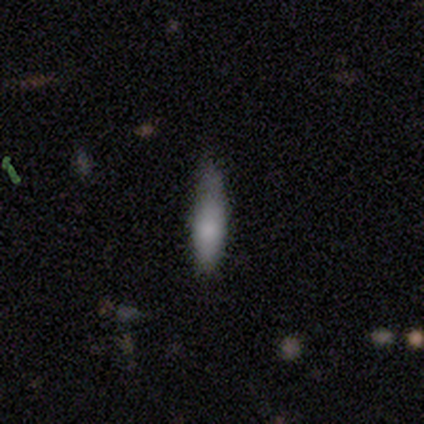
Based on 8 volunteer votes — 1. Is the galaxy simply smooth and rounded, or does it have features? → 75% smooth, 12% featured or disk, 12% star or artifact.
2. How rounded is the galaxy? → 50% in between, 33% cigar-shaped, 17% round.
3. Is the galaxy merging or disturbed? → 71% none, 29% minor disturbance, 0% major disturbance, 0% merger.